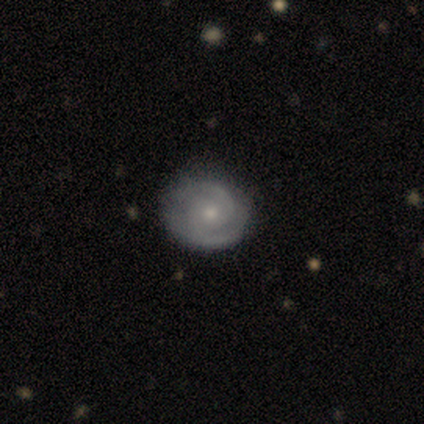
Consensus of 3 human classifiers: featured or disk 100%, smooth 0%, star or artifact 0%. Down the decision tree: edge-on disk — no (100%); bar — no (100%); spiral arms — yes (100%); spiral arm count — 2 (67%); spiral winding — tight (67%); bulge size — small (100%); merging — none (67%).